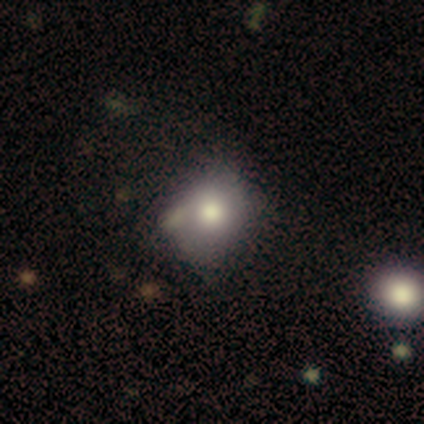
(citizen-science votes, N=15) Smooth or featured? 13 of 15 (87%) said smooth. How rounded? 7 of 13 (54%) said in between. Merging? 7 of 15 (47%, tied with minor disturbance) said none.